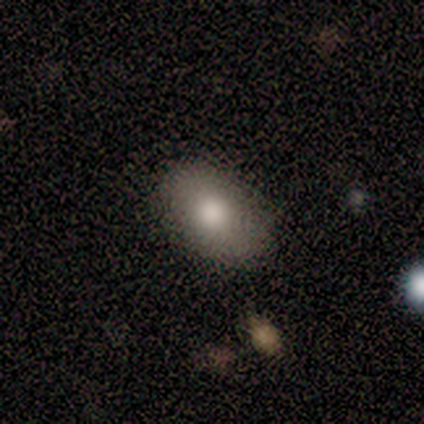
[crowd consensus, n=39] Smooth or featured?
  - smooth: 82% *
  - featured or disk: 13%
  - star or artifact: 5%
How rounded?
  - in between: 88% *
  - round: 12%
  - cigar-shaped: 0%
Merging?
  - none: 46% *
  - minor disturbance: 8%
  - major disturbance: 0%
  - merger: 0%